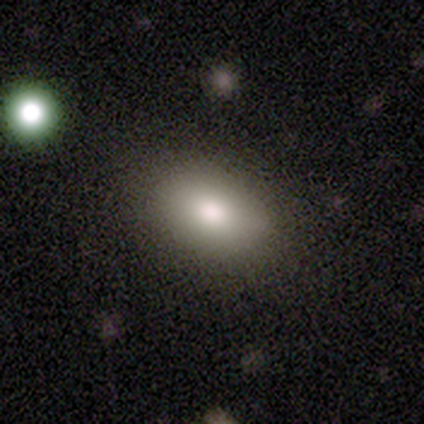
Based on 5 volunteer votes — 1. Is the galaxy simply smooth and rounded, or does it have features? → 60% smooth, 40% featured or disk, 0% star or artifact.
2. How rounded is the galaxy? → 100% in between, 0% round, 0% cigar-shaped.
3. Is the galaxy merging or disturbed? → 100% none, 0% minor disturbance, 0% major disturbance, 0% merger.